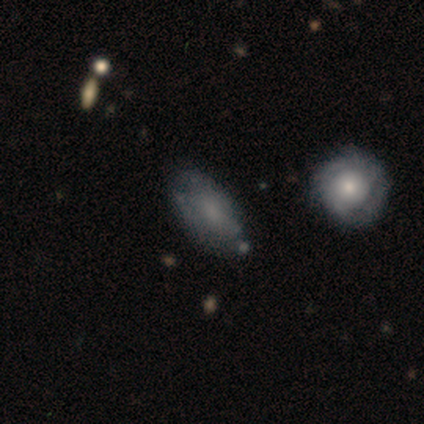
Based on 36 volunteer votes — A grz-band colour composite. It shows a smooth galaxy with no disk features (64%) that is in between round and cigar-shaped (83%). Merging: none (66%).